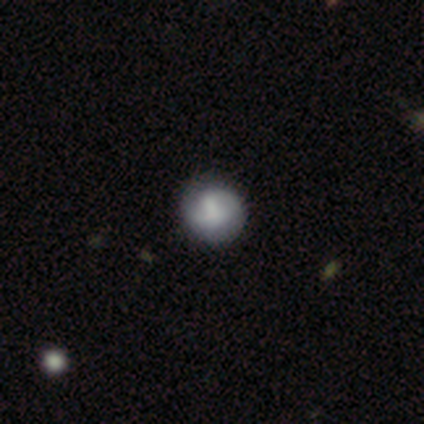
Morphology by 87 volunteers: type=smooth (63%); roundness=round (85%); merging=none (72%).